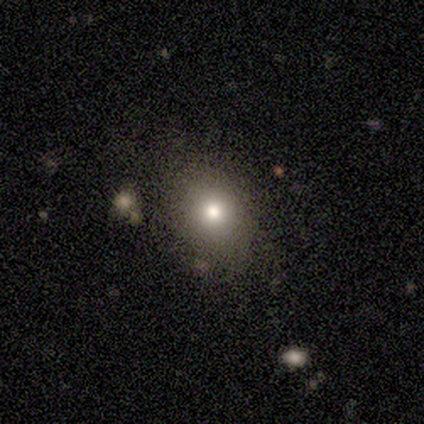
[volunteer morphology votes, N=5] smooth-or-featured: smooth: 80% | star or artifact: 20% | featured or disk: 0%
  how-rounded: in between: 100% | round: 0% | cigar-shaped: 0%
  merging: none: 50% (tied) | minor disturbance: 50% (tied) | major disturbance: 0% | merger: 0%